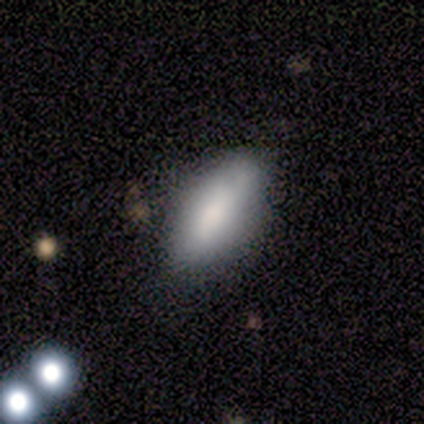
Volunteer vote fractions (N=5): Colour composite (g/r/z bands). It shows a smooth galaxy with no disk features (80%) that is in between round and cigar-shaped (100%). Merging: none (100%).